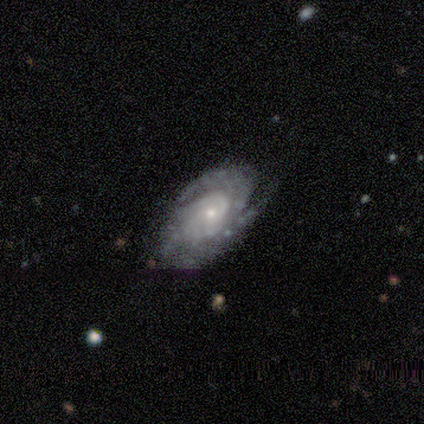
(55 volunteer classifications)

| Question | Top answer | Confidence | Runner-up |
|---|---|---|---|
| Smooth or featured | featured or disk | 93% | smooth (5%) |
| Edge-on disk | no | 98% | yes (2%) |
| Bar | no | 80% | weak (12%) |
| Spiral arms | yes | 96% | no (4%) |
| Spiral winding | tight | 69% | medium (27%) |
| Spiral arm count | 2 | 35% | tied: can't tell (35%) |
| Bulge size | small | 74% | moderate (20%) |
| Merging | none | 70% | minor disturbance (22%) |